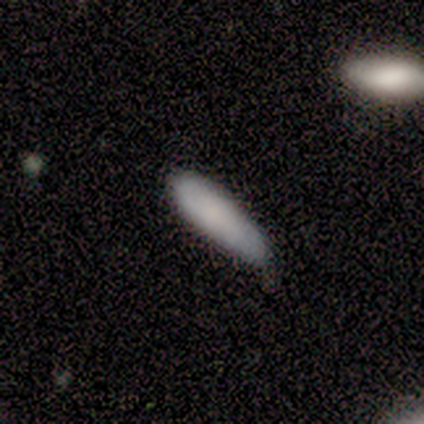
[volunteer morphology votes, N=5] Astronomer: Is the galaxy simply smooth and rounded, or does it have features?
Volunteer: smooth — 100%.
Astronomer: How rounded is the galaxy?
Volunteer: in between — 60% (runner-up: cigar-shaped, 40%).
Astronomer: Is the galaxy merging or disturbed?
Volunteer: none — 80%.